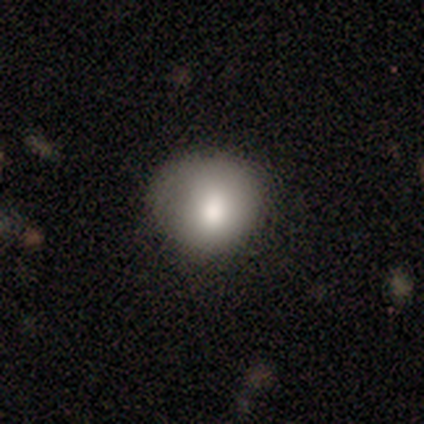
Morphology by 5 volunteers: A smooth galaxy with no disk features (60%) that is round (67%). Merging: none (50%).